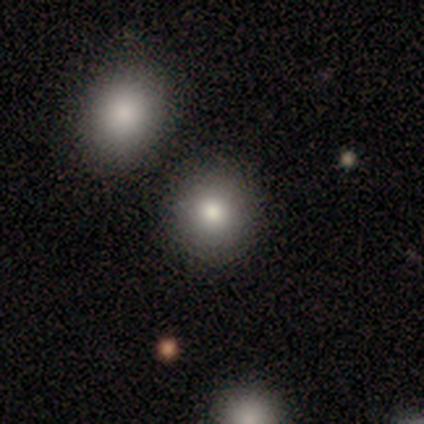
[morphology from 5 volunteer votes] Smooth or featured? 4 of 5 (80%) said smooth. How rounded? 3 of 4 (75%) said round. Merging? 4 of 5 (80%) said none.